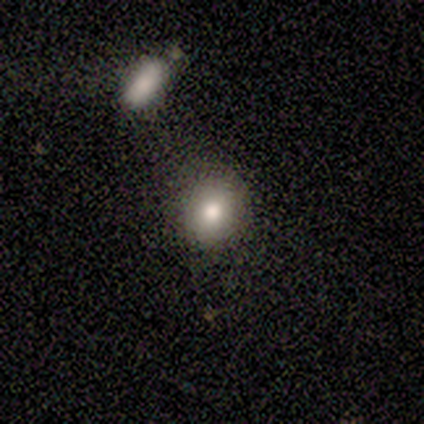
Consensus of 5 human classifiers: A smooth galaxy with no disk features (80%) that is round (75%).

Vote fractions:
- Smooth or featured? smooth: 80% / featured or disk: 20% / star or artifact: 0%
- How rounded? round: 75% / in between: 25% / cigar-shaped: 0%
- Merging? none: 80% / merger: 20% / minor disturbance: 0% / major disturbance: 0%